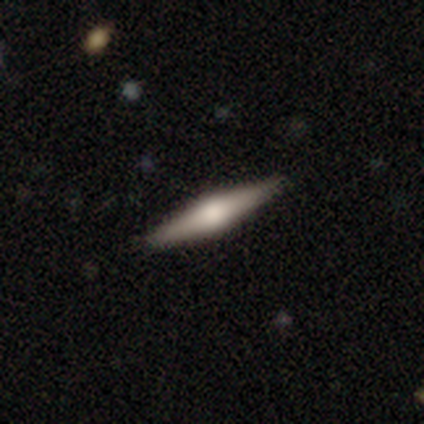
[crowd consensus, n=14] A featured or disk galaxy (79%) viewed edge-on (100%) with a rounded central bulge (91%). Merging: none (93%).